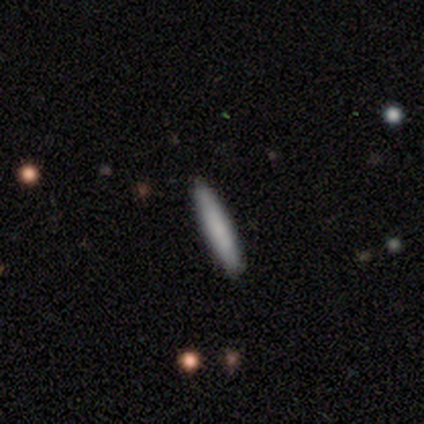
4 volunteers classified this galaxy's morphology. A smooth galaxy with no disk features (50%, tied with featured or disk) that is cigar-shaped (100%). Merging: none (100%).